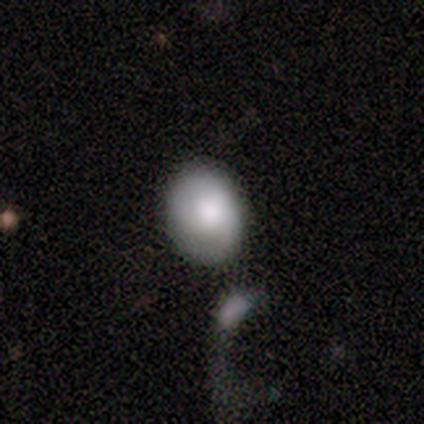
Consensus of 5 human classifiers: This is likely a featured or disk galaxy (60%). It is clearly not viewed edge-on (100%). Bar: likely no (67%). Spiral arm pattern: likely yes (67%). Spiral arm count: clearly 2 (100%). Spiral winding: possibly tight (50%, tied with medium). Central bulge: likely large (67%). Merging: marginally merger (40%).